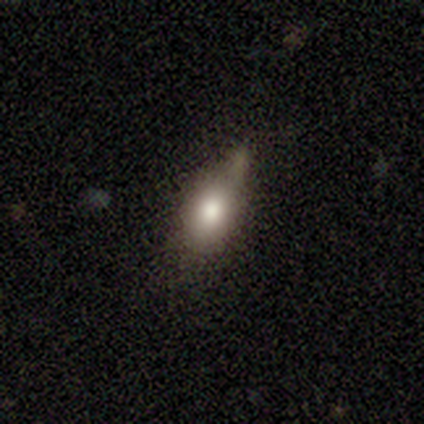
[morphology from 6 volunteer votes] Smooth or featured: smooth — 67% (featured or disk — 33%)
How rounded: in between — 100%
Merging: minor disturbance — 50% (merger — 33%)